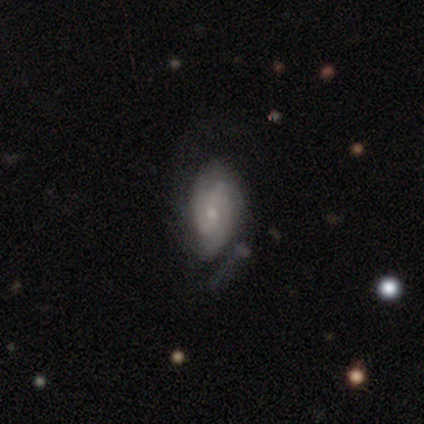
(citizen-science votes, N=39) featured or disk 82%, smooth 18%, star or artifact 0%. Down the decision tree: edge-on disk — no (97%); bar — no (68%); spiral arms — yes (87%); spiral arm count — 2 (59%); spiral winding — medium (59%); bulge size — small (68%); merging — none (46%).